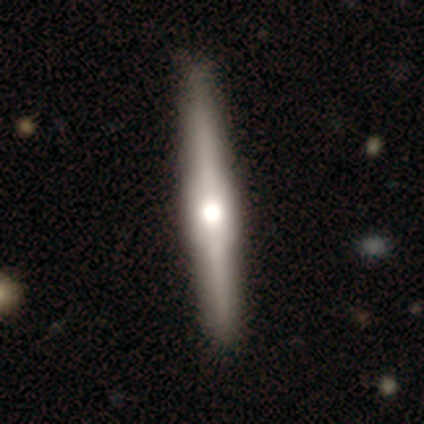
Morphology: type=featured or disk (70%); edge-on=yes (100%); edge-on bulge=rounded (68%); merging=none (59%).